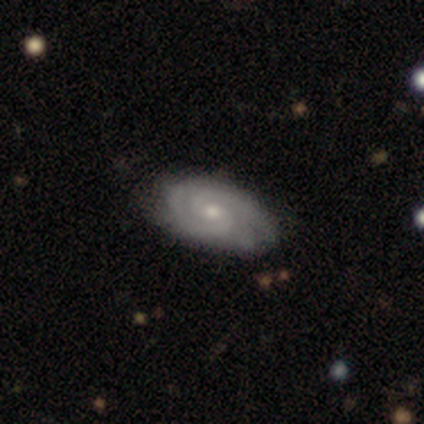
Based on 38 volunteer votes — smooth-or-featured: featured or disk: 79% | smooth: 21% | star or artifact: 0%
  disk-edge-on: no: 90% | yes: 10%
    bar: no: 63% | weak: 37% | strong: 0%
    has-spiral-arms: yes: 100% | no: 0%
      spiral-winding: tight: 63% | medium: 37% | loose: 0%
      spiral-arm-count: 2: 70% | 3: 22% | can't tell: 7% | 1: 0% | 4: 0% | more than 4: 0%
    bulge-size: moderate: 56% | small: 44% | dominant: 0% | large: 0% | none: 0%
  merging: none: 74% | minor disturbance: 18% | merger: 8% | major disturbance: 0%